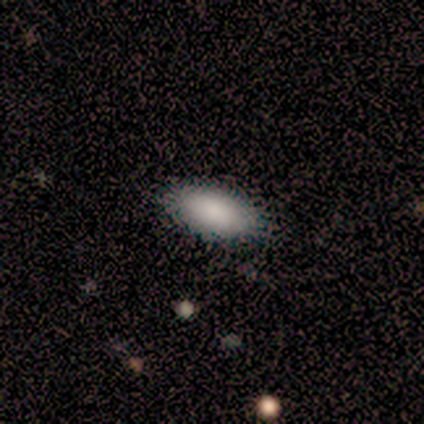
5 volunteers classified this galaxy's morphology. A smooth galaxy with no disk features (80%) that is in between round and cigar-shaped (100%). Merging: none (100%).